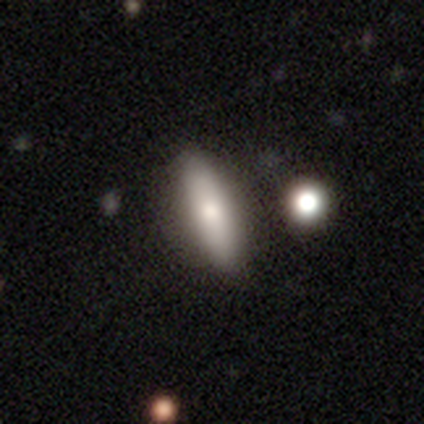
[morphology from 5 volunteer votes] This is likely a featured or disk galaxy (60%). It is likely viewed edge-on (67%). Edge-on bulge: possibly none (50%, tied with rounded). Merging: clearly none (80%).